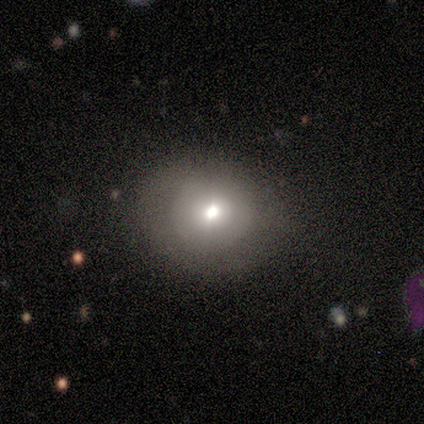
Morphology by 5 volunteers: Q: Smooth or featured?
A: featured or disk (60%); runner-up: smooth (40%)
Q: Edge-on disk?
A: no (67%); runner-up: yes (33%)
Q: Bar?
A: no (100%)
Q: Spiral arms?
A: no (100%)
Q: Bulge size?
A: moderate (100%)
Q: Merging?
A: none (60%); runner-up: minor disturbance (20%)